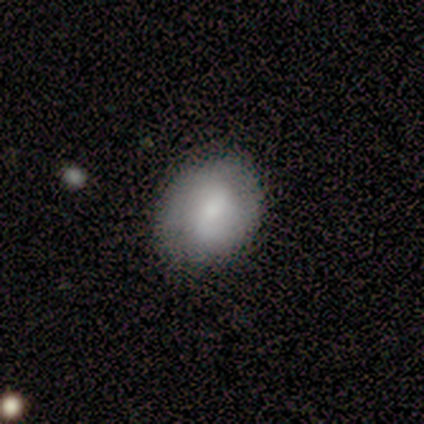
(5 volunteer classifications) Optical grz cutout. It shows a smooth galaxy with no disk features (80%) that is in between round and cigar-shaped (75%). Merging: none (80%).